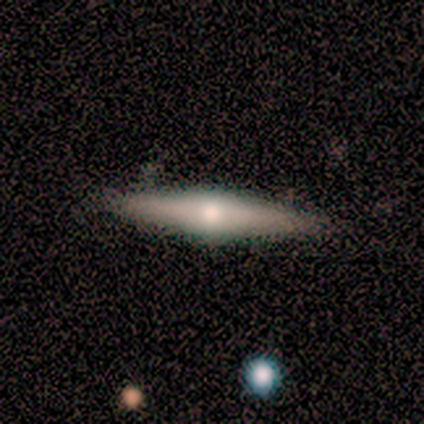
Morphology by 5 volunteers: Smooth or featured? featured or disk (80%)
Edge-on disk? yes (100%)
Edge-on bulge? rounded (100%)
Merging? none (60%)